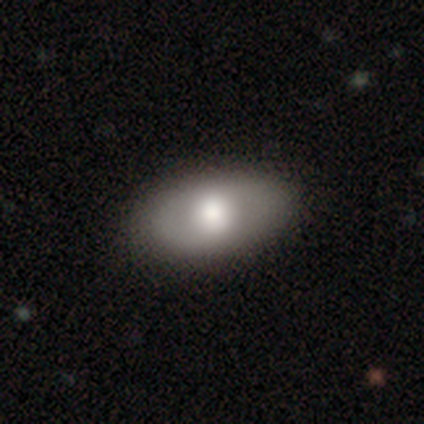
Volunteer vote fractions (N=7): Volunteers were most divided on "smooth or featured": smooth: 86%, featured or disk: 14%, star or artifact: 0%. More confident: how rounded — in between (100%); merging — none (86%).